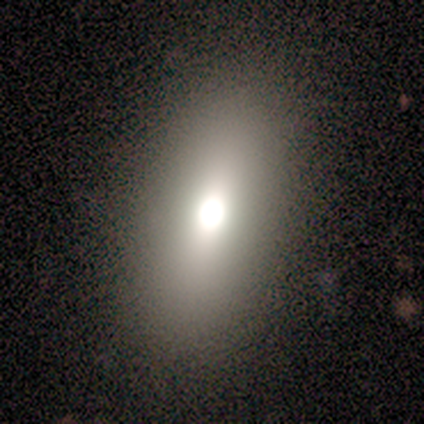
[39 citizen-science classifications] Overall: smooth (82%). How rounded: in between (72%). Merging: none (81%).